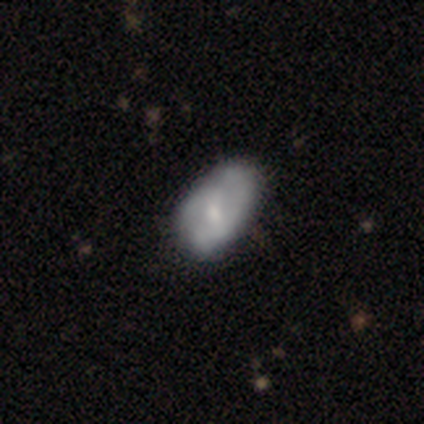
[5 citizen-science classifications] This appears to be a smooth galaxy with no disk features (60%) that is in between round and cigar-shaped (67%). Merging: none (60%).